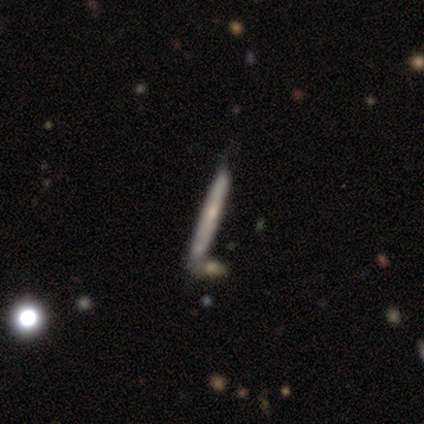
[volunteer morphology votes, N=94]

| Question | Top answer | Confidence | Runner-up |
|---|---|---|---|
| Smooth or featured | featured or disk | 52% | smooth (40%) |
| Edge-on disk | yes | 92% | no (8%) |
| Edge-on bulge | none | 62% | rounded (33%) |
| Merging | none | 66% | minor disturbance (17%) |